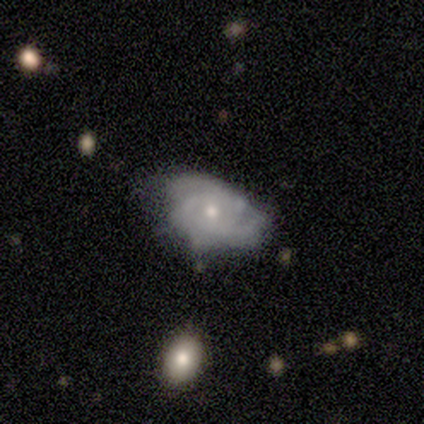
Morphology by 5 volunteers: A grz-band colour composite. It shows a smooth galaxy with no disk features (60%) that is in between round and cigar-shaped (100%). Merging: none (60%).